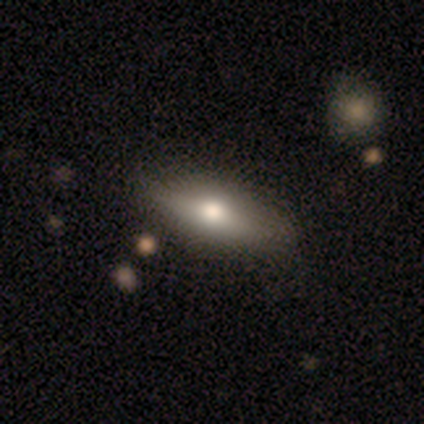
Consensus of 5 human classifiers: smooth 60%, featured or disk 40%, star or artifact 0%. Down the decision tree: how rounded — cigar-shaped (67%); merging — none (60%).